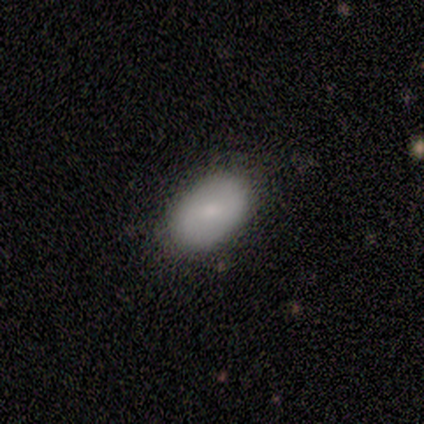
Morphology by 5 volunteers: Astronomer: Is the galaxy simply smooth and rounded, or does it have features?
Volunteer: smooth — 100%.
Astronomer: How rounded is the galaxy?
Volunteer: in between — 100%.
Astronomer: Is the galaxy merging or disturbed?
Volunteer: none — 60% (runner-up: minor disturbance, 40%).